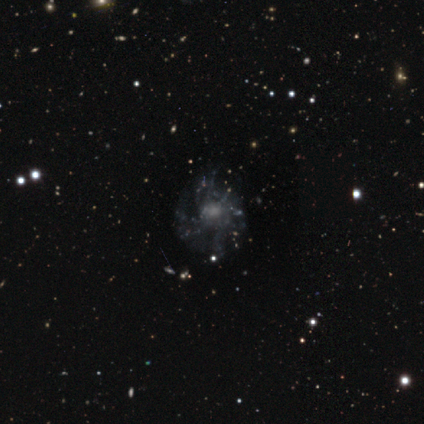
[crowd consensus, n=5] Q: Smooth or featured?
A: featured or disk (60%); runner-up: smooth (40%)
Q: Edge-on disk?
A: no (100%)
Q: Bar?
A: no (100%)
Q: Spiral arms?
A: no (67%); runner-up: yes (33%)
Q: Bulge size?
A: small (67%); runner-up: moderate (33%)
Q: Merging?
A: none (40%); tied with: minor disturbance (40%)